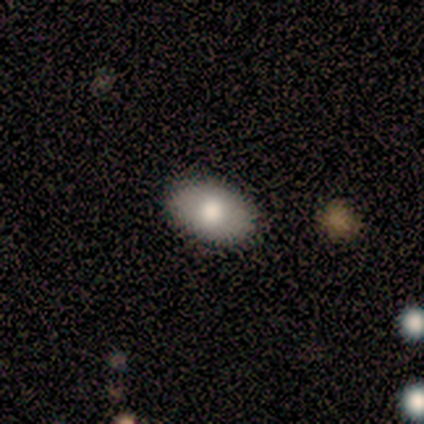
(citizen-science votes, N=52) Morphology: type=smooth (81%); roundness=in between (95%); merging=none (92%).